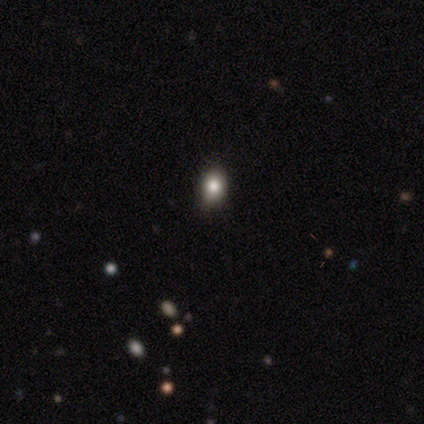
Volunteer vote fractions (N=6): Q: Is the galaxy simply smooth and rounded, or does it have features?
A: smooth — 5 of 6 (83%).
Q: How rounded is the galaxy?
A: in between — 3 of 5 (60%).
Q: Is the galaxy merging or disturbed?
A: none — 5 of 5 (100%).